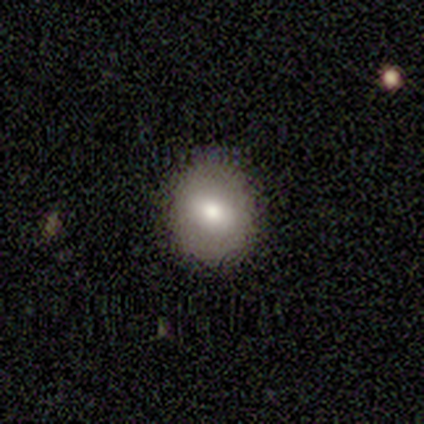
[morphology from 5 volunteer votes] Q: Smooth or featured?
A: smooth (100%)
Q: How rounded?
A: round (100%)
Q: Merging?
A: none (100%)